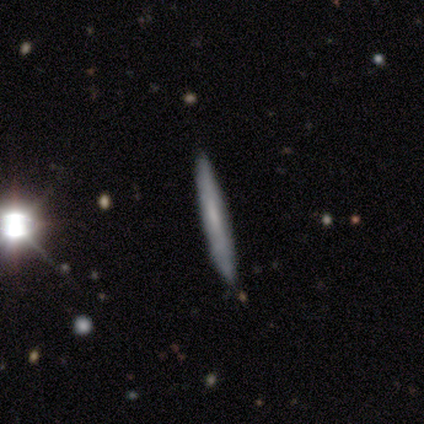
This appears to be a smooth galaxy with no disk features (50%) that is cigar-shaped (100%). Merging: none (100%).